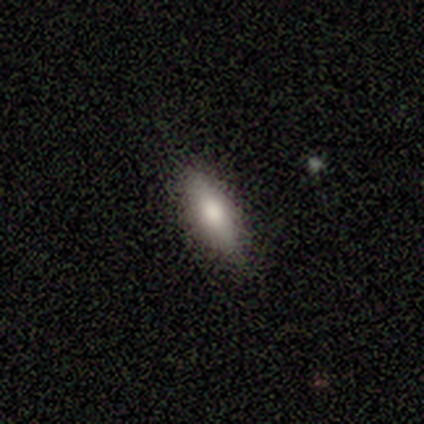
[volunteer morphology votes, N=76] type=smooth (75%); roundness=in between (58%); merging=none (52%).